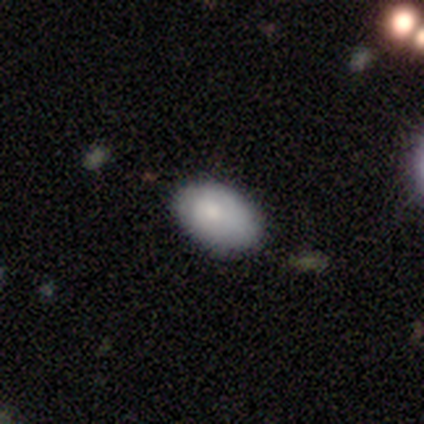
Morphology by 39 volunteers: Q: Smooth or featured?
A: smooth (77%); runner-up: featured or disk (21%)
Q: How rounded?
A: in between (93%); runner-up: round (7%)
Q: Merging?
A: none (63%); runner-up: minor disturbance (37%)